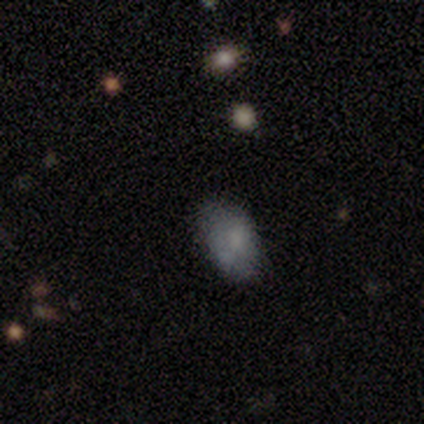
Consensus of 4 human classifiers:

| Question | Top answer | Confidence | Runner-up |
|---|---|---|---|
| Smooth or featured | smooth | 100% | — |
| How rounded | in between | 100% | — |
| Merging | none | 75% | minor disturbance (25%) |